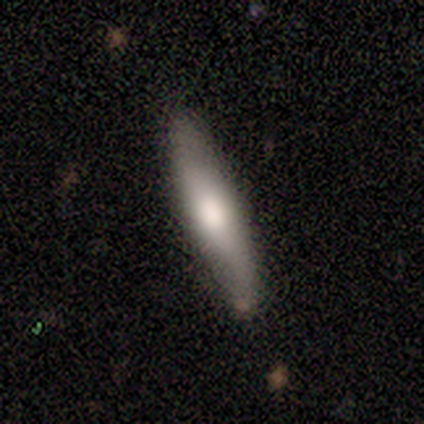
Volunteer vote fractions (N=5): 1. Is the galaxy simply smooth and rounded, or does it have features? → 80% smooth, 20% featured or disk, 0% star or artifact.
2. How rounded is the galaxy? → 50% in between (tied), 50% cigar-shaped (tied), 0% round.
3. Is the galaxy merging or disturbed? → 100% none, 0% minor disturbance, 0% major disturbance, 0% merger.